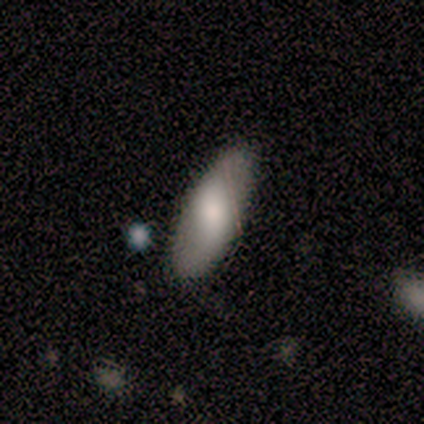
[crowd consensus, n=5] Morphology: type=smooth (60%); roundness=in between (67%); merging=none (80%).